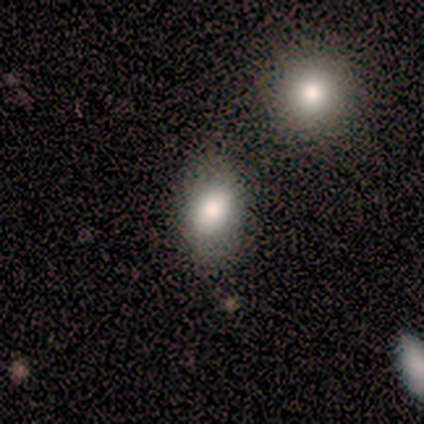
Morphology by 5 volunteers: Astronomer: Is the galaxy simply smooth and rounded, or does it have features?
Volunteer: smooth — 60%.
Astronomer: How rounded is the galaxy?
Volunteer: round — 67%.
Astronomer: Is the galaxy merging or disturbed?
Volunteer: none — 50%, tied with minor disturbance at 50%.